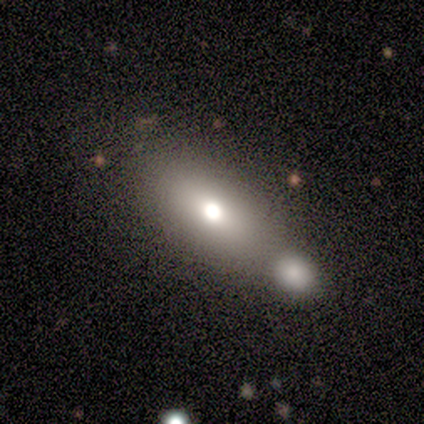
Overall: smooth (86%). How rounded: in between (83%). Merging: merger (54%).